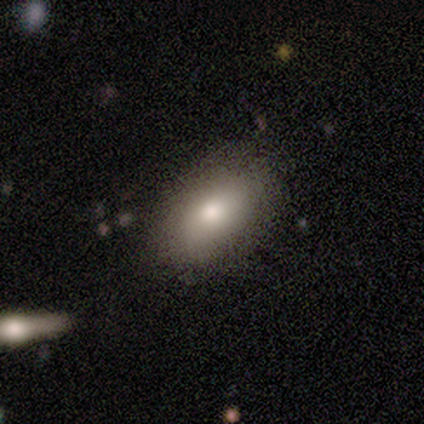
Volunteers were most divided on "how rounded": in between: 86%, cigar-shaped: 14%, round: 0%. More confident: smooth or featured — smooth (100%); merging — none (100%).